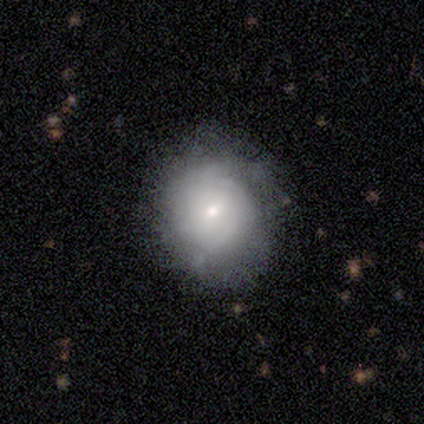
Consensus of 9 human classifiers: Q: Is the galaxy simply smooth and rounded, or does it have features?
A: featured or disk — 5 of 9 (56%).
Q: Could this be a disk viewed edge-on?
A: no — 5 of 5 (100%).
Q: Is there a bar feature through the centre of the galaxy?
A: no — 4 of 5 (80%).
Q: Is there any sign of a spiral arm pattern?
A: yes — 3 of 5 (60%).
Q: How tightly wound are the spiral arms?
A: medium — 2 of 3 (67%).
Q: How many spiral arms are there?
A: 2 — 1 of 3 (33%, tied with 3 and can't tell).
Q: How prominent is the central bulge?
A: small — 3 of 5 (60%).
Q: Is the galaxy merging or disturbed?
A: none — 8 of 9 (89%).